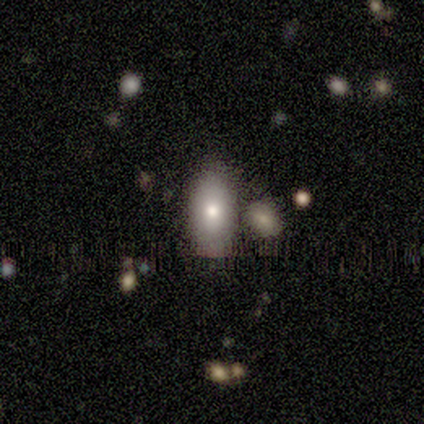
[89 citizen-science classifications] Smooth or featured?
  - smooth: 72% *
  - featured or disk: 20%
  - star or artifact: 8%
How rounded?
  - in between: 89% *
  - cigar-shaped: 6%
  - round: 5%
Merging?
  - none: 59% *
  - merger: 21%
  - minor disturbance: 17%
  - major disturbance: 4%